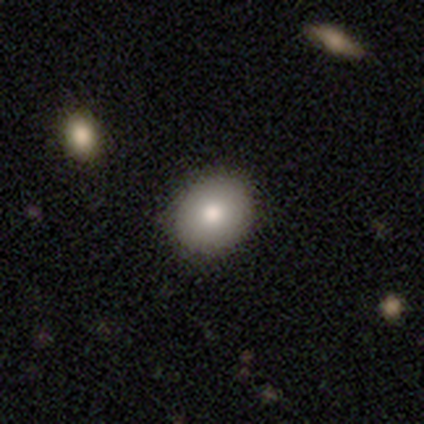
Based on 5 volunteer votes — Smooth or featured: smooth — 60% (featured or disk — 40%)
How rounded: round — 67% (in between — 33%)
Merging: none — 80% (minor disturbance — 20%)